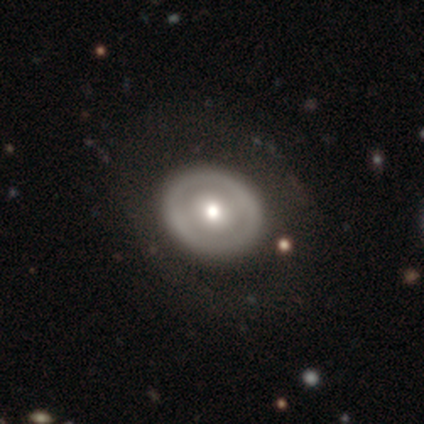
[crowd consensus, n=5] Smooth or featured: featured or disk — 60% (smooth — 40%)
Edge-on disk: no — 67% (yes — 33%)
Bar: no — 100%
Spiral arms: no — 100%
Bulge size: moderate — 100%
Merging: none — 80% (major disturbance — 20%)